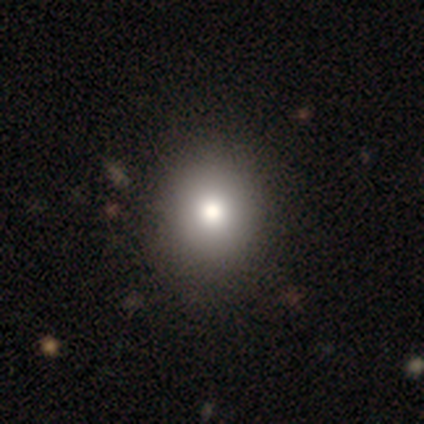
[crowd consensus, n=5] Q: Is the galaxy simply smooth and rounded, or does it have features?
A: smooth — 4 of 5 (80%).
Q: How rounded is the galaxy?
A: round — 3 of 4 (75%).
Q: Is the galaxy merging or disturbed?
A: none — 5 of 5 (100%).